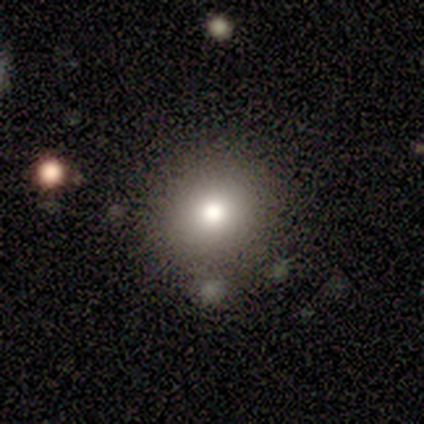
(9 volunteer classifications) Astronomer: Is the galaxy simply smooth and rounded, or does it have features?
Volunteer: smooth — 78%.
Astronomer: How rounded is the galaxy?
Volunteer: round — 86%.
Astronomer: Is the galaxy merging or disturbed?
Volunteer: none — 100%.